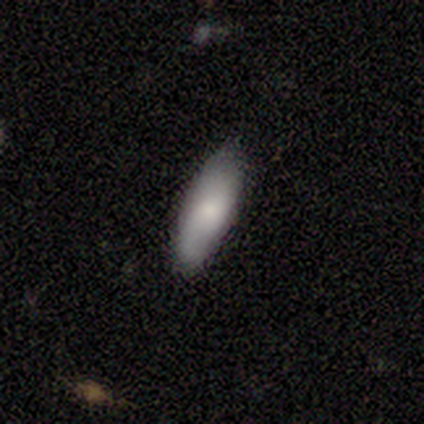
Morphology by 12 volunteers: smooth 100%, featured or disk 0%, star or artifact 0%. Down the decision tree: how rounded — in between (58%); merging — none (75%).